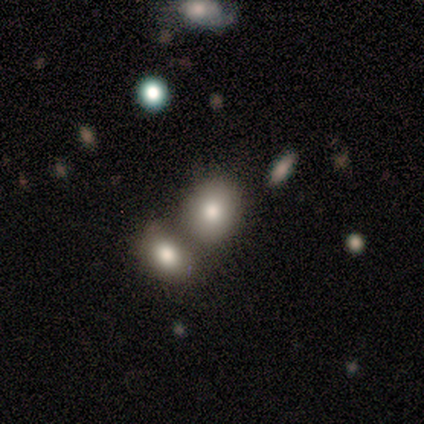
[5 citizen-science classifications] Smooth or featured?
  - smooth: 60% *
  - star or artifact: 40%
  - featured or disk: 0%
How rounded?
  - round: 67% *
  - in between: 33%
  - cigar-shaped: 0%
Merging?
  - none: 33% * (tied)
  - minor disturbance: 33% * (tied)
  - merger: 33% * (tied)
  - major disturbance: 0%